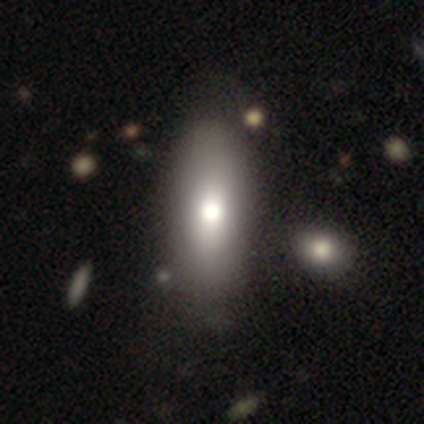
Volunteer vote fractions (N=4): This is likely a smooth galaxy (75%). How rounded: marginally round (33%, tied with in between and cigar-shaped). Merging: likely minor disturbance (75%).